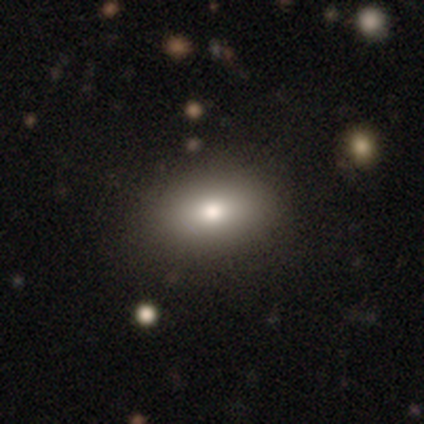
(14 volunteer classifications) Smooth or featured: smooth — 93% (star or artifact — 7%)
How rounded: in between — 85% (round — 15%)
Merging: none — 69% (minor disturbance — 23%)